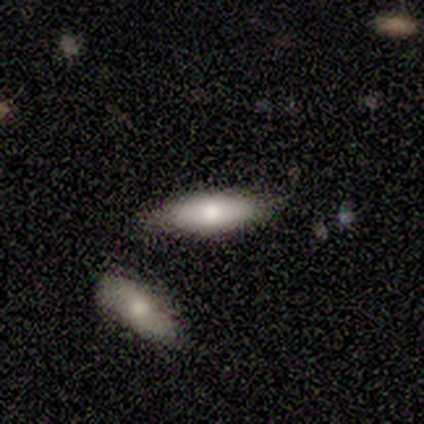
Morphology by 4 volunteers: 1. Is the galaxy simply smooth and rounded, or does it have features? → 50% smooth, 25% featured or disk, 25% star or artifact.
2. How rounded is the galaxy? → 50% in between (tied), 50% cigar-shaped (tied), 0% round.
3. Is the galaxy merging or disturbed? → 100% none, 0% minor disturbance, 0% major disturbance, 0% merger.